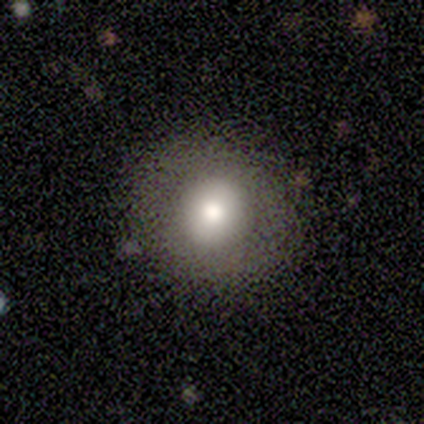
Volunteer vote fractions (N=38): Volunteers were most divided on "smooth or featured": smooth: 87%, featured or disk: 8%, star or artifact: 5%. More confident: how rounded — round (97%); merging — none (94%).